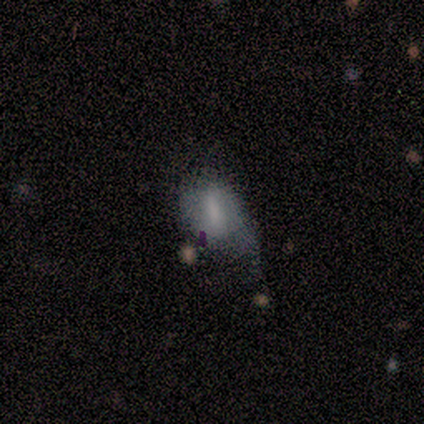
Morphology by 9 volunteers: A smooth galaxy with no disk features (44%, tied with featured or disk) that is in between round and cigar-shaped (50%).

Vote fractions:
- Smooth or featured? smooth: 44% (tied) / featured or disk: 44% (tied) / star or artifact: 11%
- How rounded? in between: 50% / round: 25% / cigar-shaped: 25%
- Merging? none: 38% (tied) / major disturbance: 38% (tied) / minor disturbance: 25% / merger: 0%